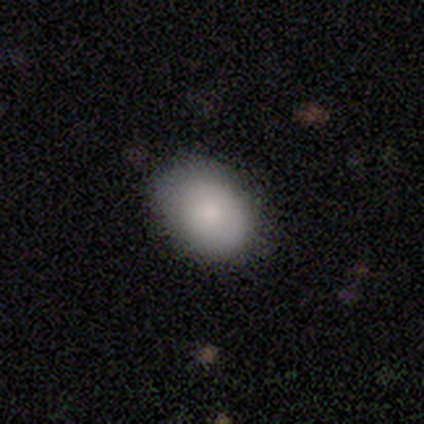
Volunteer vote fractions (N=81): smooth_or_featured: smooth (p=0.77) [alt: featured or disk p=0.15]
how_rounded: in between (p=0.82) [alt: round p=0.16]
merging: none (p=0.73) [alt: minor disturbance p=0.18]